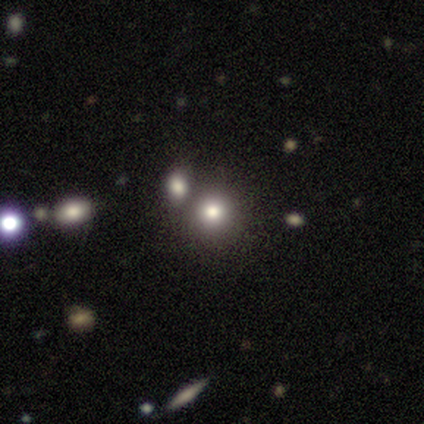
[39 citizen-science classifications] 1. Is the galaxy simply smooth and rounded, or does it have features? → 79% smooth, 13% star or artifact, 8% featured or disk.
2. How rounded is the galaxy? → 84% round, 13% in between, 3% cigar-shaped.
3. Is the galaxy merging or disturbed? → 68% none, 24% merger, 6% minor disturbance, 3% major disturbance.